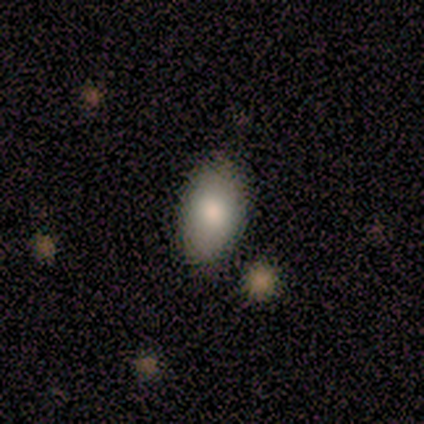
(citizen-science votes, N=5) This appears to be a smooth galaxy with no disk features (100%) that is in between round and cigar-shaped (100%). Merging: none (60%).